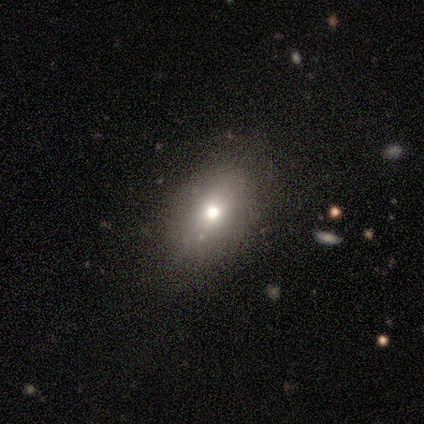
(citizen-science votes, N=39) Morphology: type=smooth (64%); roundness=in between (88%); merging=none (76%).